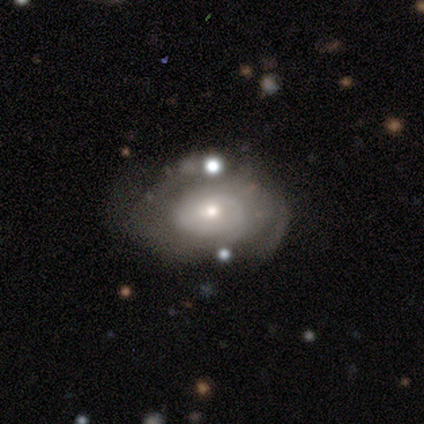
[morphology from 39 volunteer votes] type=featured or disk (82%); edge-on=no (97%); bar=no (71%); spiral arms=yes (61%); winding=tight (79%); arm count=can't tell (47%); bulge=small (45%); merging=none (32%).